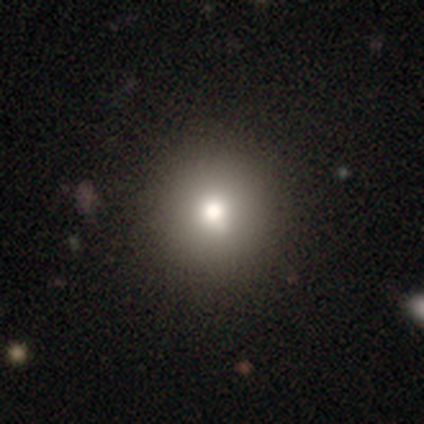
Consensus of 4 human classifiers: This is clearly a smooth galaxy (100%). How rounded: clearly round (100%). Merging: likely none (75%).